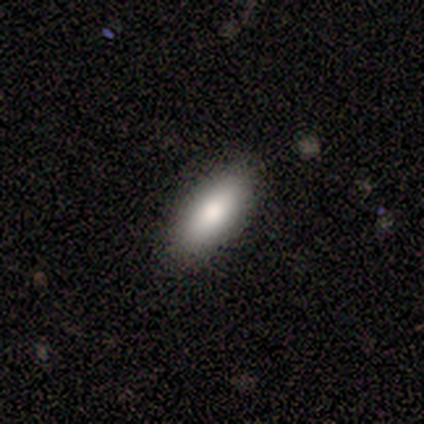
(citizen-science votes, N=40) Q: Smooth or featured?
A: smooth (80%); runner-up: featured or disk (10%)
Q: How rounded?
A: in between (84%); runner-up: cigar-shaped (16%)
Q: Merging?
A: none (92%); runner-up: minor disturbance (6%)